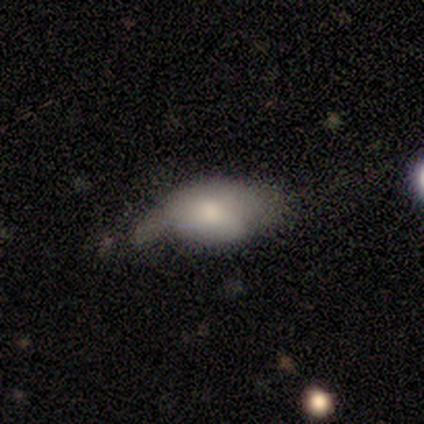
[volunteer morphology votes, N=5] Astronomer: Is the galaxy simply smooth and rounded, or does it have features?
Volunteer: featured or disk — 60% (runner-up: smooth, 40%).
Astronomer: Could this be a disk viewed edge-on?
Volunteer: no — 100%.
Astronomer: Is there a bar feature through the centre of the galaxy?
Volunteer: no — 100%.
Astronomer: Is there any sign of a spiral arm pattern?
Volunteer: no — 67%.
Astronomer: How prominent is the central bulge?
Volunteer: large — 67%.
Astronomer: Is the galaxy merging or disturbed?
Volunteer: minor disturbance — 40%, tied with major disturbance at 40%.